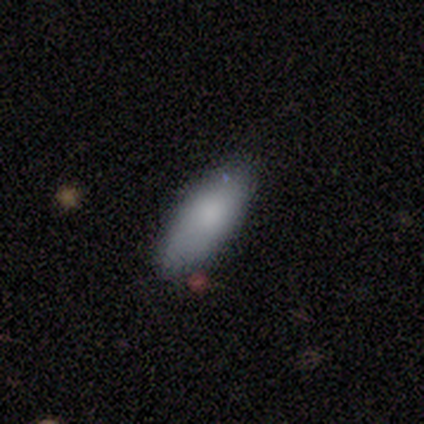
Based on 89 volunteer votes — Smooth or featured? 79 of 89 (89%) said smooth. How rounded? 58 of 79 (73%) said in between. Merging? 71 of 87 (82%) said none.